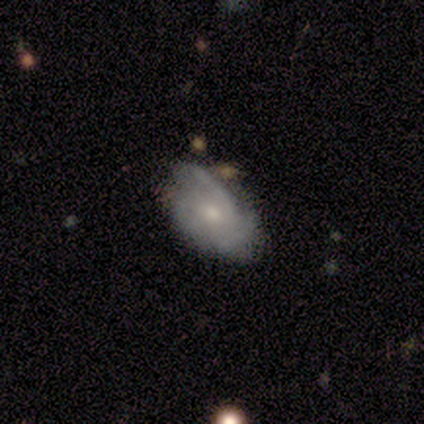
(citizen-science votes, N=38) Overall: featured or disk (68%; smooth 32%). Edge-on disk: no (96%). Bar: no (80%). Spiral arms: yes (88%). Spiral arm count: 3 (41%; 2 36%). Spiral winding: medium (45%; tight 36%). Bulge size: moderate (48%; small 40%). Merging: none (37%; minor disturbance 29%).